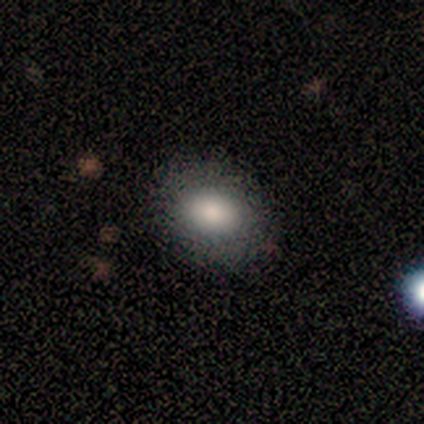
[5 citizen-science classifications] Smooth or featured? 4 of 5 (80%) said smooth. How rounded? 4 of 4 (100%) said in between. Merging? 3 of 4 (75%) said none.